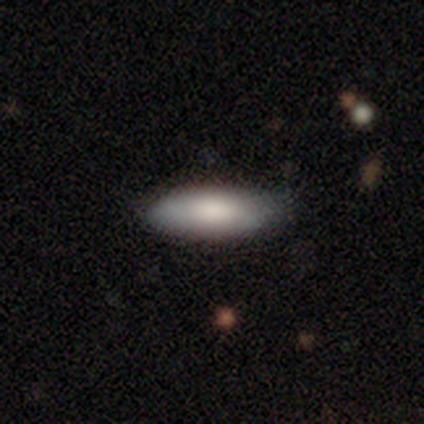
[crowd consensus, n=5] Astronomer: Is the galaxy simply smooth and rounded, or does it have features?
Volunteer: smooth — 80%.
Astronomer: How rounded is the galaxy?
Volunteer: cigar-shaped — 75%.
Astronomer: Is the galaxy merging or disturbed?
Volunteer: none — 75%.